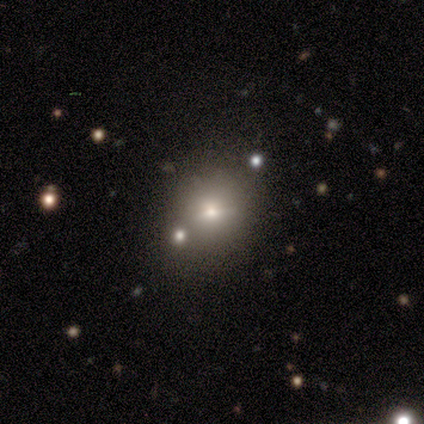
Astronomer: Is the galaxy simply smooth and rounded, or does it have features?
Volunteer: smooth — 50%, tied with star or artifact at 50%.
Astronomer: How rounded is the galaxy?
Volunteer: round — 50%, tied with in between at 50%.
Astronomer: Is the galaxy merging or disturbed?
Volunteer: none — 100%.